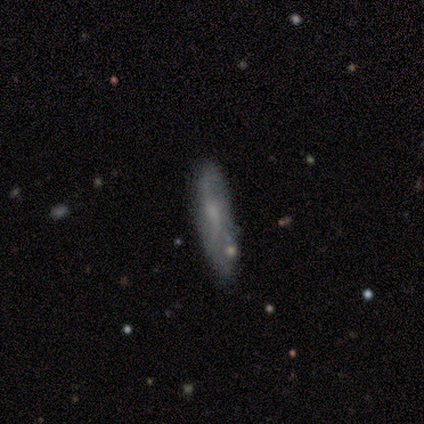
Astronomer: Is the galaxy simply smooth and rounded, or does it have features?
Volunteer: smooth — 60% (runner-up: featured or disk, 40%).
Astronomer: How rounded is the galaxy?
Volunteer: cigar-shaped — 100%.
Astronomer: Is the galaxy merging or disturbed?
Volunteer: none — 60% (runner-up: minor disturbance, 40%).